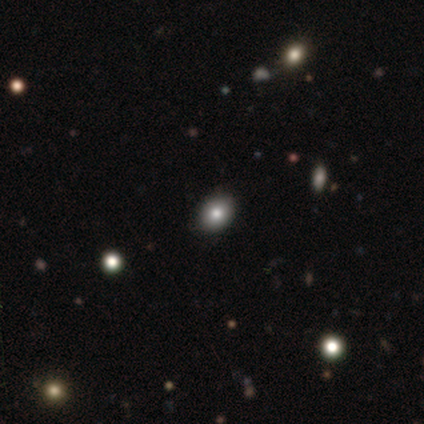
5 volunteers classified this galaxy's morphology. smooth-or-featured: smooth: 60% | star or artifact: 40% | featured or disk: 0%
  how-rounded: in between: 67% | round: 33% | cigar-shaped: 0%
  merging: none: 100% | minor disturbance: 0% | major disturbance: 0% | merger: 0%